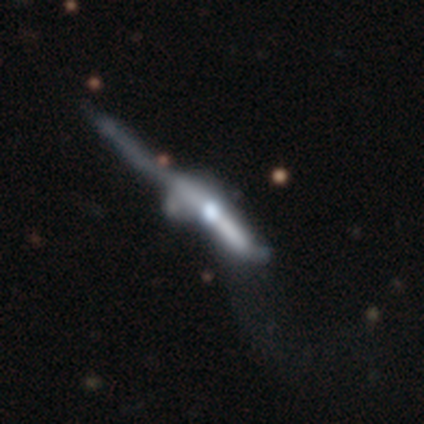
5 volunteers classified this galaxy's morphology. A smooth galaxy with no disk features (40%, tied with featured or disk) that is cigar-shaped (100%).

Vote fractions:
- Smooth or featured? smooth: 40% (tied) / featured or disk: 40% (tied) / star or artifact: 20%
- How rounded? cigar-shaped: 100% / round: 0% / in between: 0%
- Merging? major disturbance: 50% / none: 25% / merger: 25% / minor disturbance: 0%